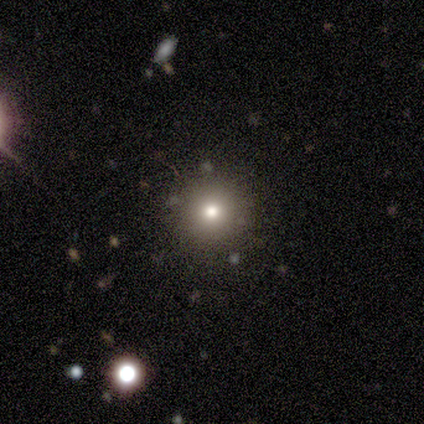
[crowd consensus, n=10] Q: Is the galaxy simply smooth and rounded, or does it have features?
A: smooth — 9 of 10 (90%).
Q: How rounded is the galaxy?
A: round — 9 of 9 (100%).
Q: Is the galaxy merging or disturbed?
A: none — 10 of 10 (100%).